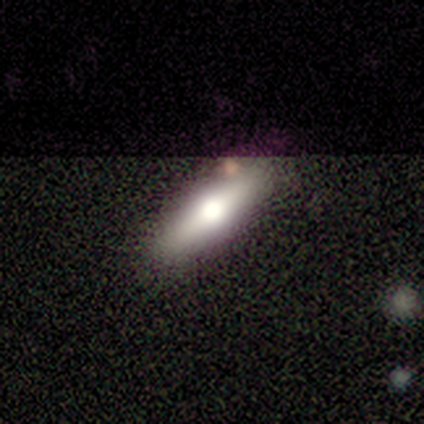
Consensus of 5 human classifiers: Q: Smooth or featured?
A: smooth (40%); tied with: featured or disk (40%)
Q: How rounded?
A: in between (50%); tied with: cigar-shaped (50%)
Q: Merging?
A: none (100%)